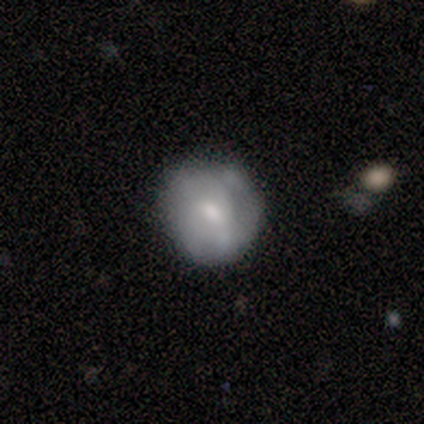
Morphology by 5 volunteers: Q: Smooth or featured?
A: smooth (80%); runner-up: featured or disk (20%)
Q: How rounded?
A: round (100%)
Q: Merging?
A: none (100%)